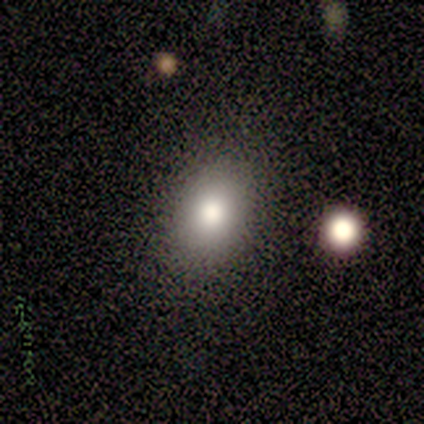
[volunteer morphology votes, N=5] Volunteers were most divided on "how rounded": in between: 80%, round: 20%, cigar-shaped: 0%. More confident: smooth or featured — smooth (100%); merging — none (100%).